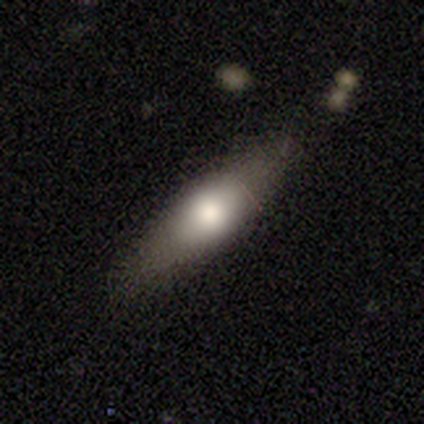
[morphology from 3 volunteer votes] Smooth or featured?
  - featured or disk: 100% *
  - smooth: 0%
  - star or artifact: 0%
Edge-on disk?
  - yes: 100% *
  - no: 0%
Edge-on bulge?
  - rounded: 67% *
  - none: 33%
  - boxy: 0%
Merging?
  - none: 67% *
  - minor disturbance: 33%
  - major disturbance: 0%
  - merger: 0%